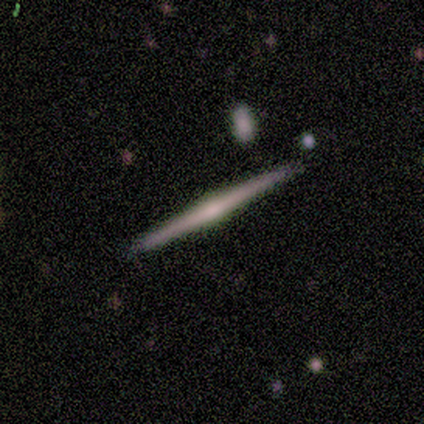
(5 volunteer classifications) Morphology: type=featured or disk (100%); edge-on=yes (100%); edge-on bulge=rounded (100%); merging=none (100%).